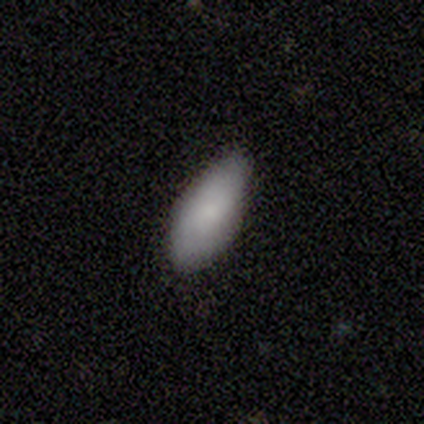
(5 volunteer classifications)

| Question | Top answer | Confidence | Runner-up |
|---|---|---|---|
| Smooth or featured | smooth | 100% | — |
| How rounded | in between | 80% | cigar-shaped (20%) |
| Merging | none | 60% | minor disturbance (40%) |